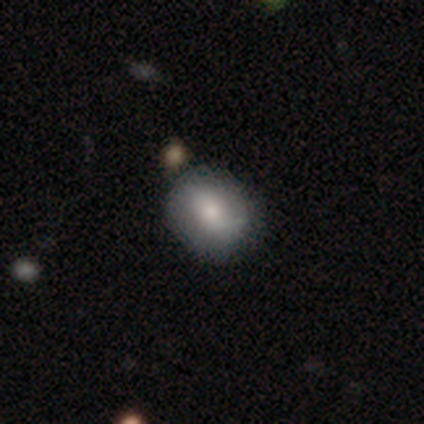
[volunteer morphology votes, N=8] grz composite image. It shows a smooth galaxy with no disk features (50%) that is round (50%, tied with in between). Merging: none (86%).